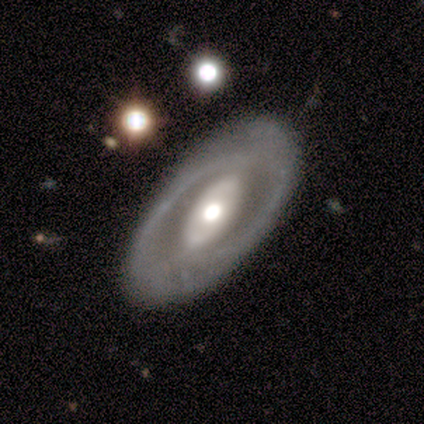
This is marginally a featured or disk galaxy (40%, tied with star or artifact). It is clearly not viewed edge-on (100%). Bar: possibly strong (50%, tied with no). Spiral arm pattern: possibly yes (50%, tied with no). Spiral arm count: clearly 2 (100%). Spiral winding: clearly tight (100%). Central bulge: possibly large (50%, tied with moderate). Merging: clearly none (100%).